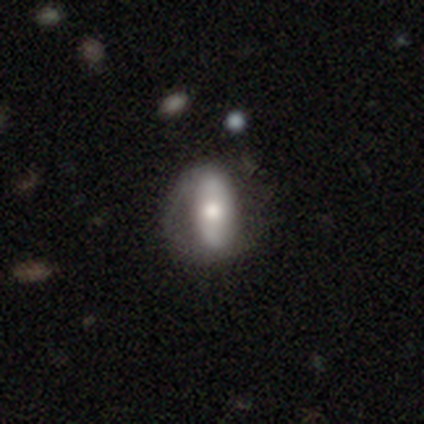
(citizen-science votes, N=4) This appears to be a featured or disk galaxy (75%) with no bar (100%), no spiral arms (67%) and a moderate central bulge (67%). Merging: minor disturbance (50%).